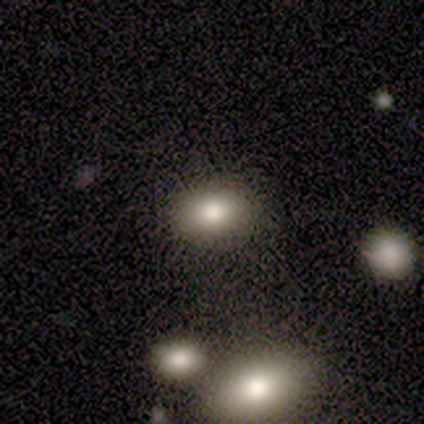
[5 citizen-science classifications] Q: Smooth or featured?
A: smooth (60%); runner-up: featured or disk (20%)
Q: How rounded?
A: in between (100%)
Q: Merging?
A: none (50%); tied with: minor disturbance (50%)